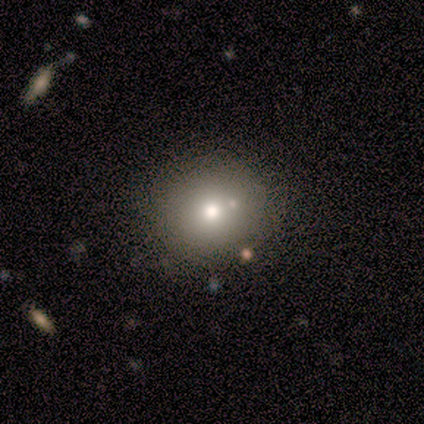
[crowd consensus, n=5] Q: Smooth or featured?
A: smooth (80%); runner-up: featured or disk (20%)
Q: How rounded?
A: round (100%)
Q: Merging?
A: none (80%); runner-up: merger (20%)